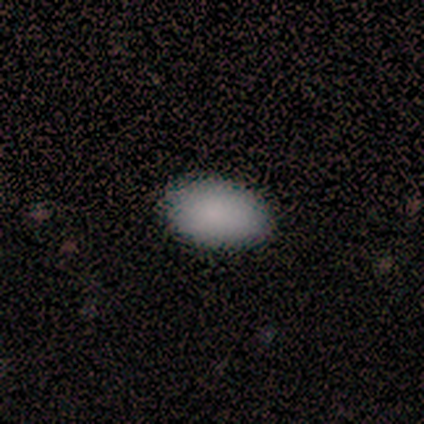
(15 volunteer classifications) A smooth galaxy with no disk features (80%) that is in between round and cigar-shaped (92%). Merging: none (100%).